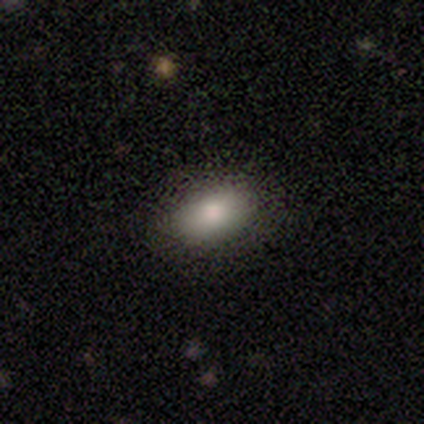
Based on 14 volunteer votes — Smooth or featured? 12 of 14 (86%) said smooth. How rounded? 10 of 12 (83%) said in between. Merging? 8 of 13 (62%) said none.